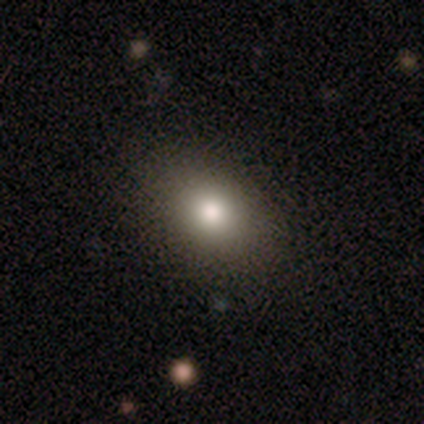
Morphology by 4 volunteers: type=smooth (100%); roundness=in between (75%); merging=none (75%).